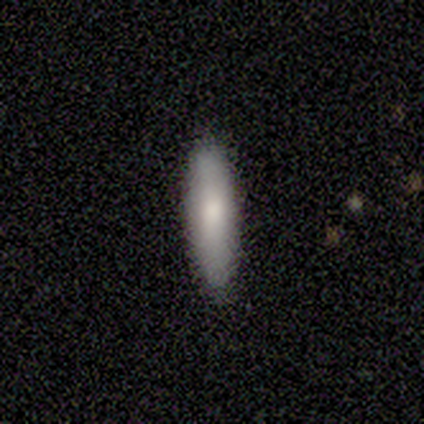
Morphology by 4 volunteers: smooth_or_featured: smooth (p=0.75) [alt: featured or disk p=0.25]
how_rounded: cigar-shaped (p=0.67) [alt: in between p=0.33]
merging: none (p=0.75) [alt: minor disturbance p=0.25]